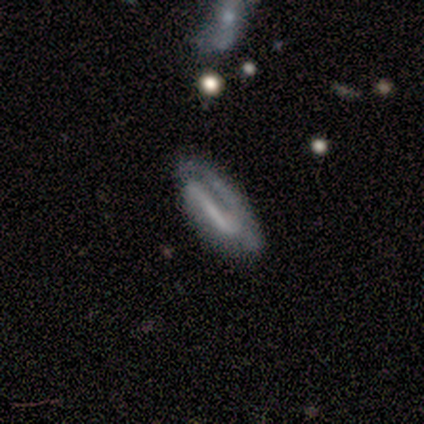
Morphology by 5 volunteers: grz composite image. It shows a smooth galaxy with no disk features (40%, tied with featured or disk) that is in between round and cigar-shaped (50%, tied with cigar-shaped). Merging: none (50%).